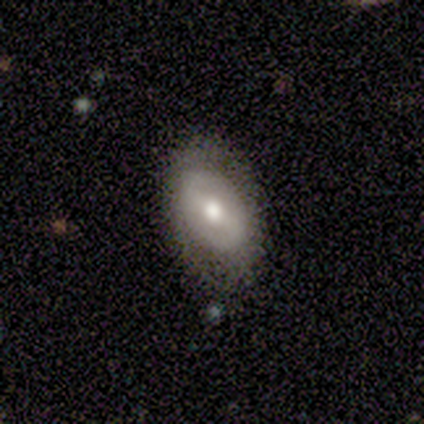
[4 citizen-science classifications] Q: Smooth or featured?
A: featured or disk (75%); runner-up: smooth (25%)
Q: Edge-on disk?
A: no (100%)
Q: Bar?
A: weak (67%); runner-up: strong (33%)
Q: Spiral arms?
A: no (100%)
Q: Bulge size?
A: moderate (67%); runner-up: large (33%)
Q: Merging?
A: none (100%)